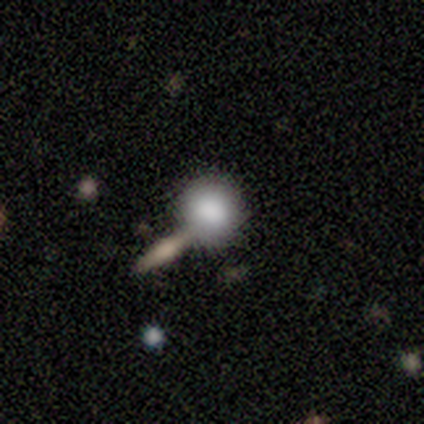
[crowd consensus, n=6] Volunteers were most divided on "merging": none: 67%, minor disturbance: 17%, major disturbance: 17%, merger: 0%. More confident: smooth or featured — smooth (100%); how rounded — round (83%).